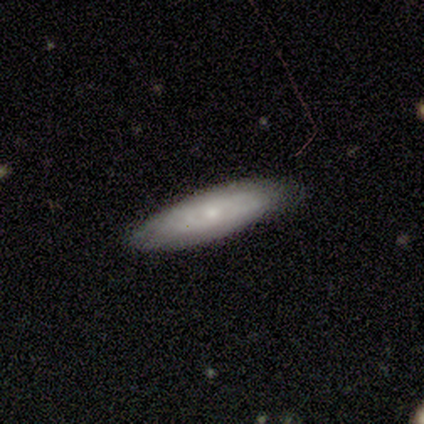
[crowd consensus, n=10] This is likely a smooth galaxy (60%). How rounded: likely cigar-shaped (67%). Merging: likely none (78%).